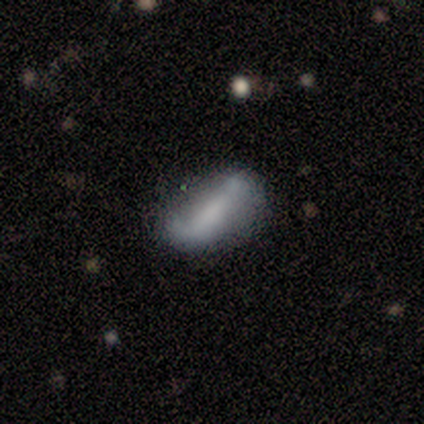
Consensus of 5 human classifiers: This is likely a featured or disk galaxy (60%). It is clearly not viewed edge-on (100%). Bar: likely no (67%). Spiral arm pattern: likely no (67%). Central bulge: marginally moderate (33%, tied with small and none). Merging: likely none (60%).